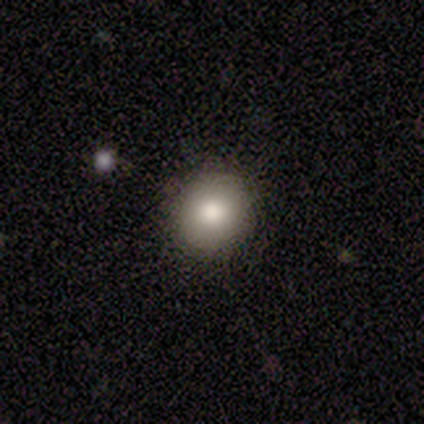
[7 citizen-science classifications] A smooth galaxy with no disk features (100%) that is round (86%). Merging: none (86%).